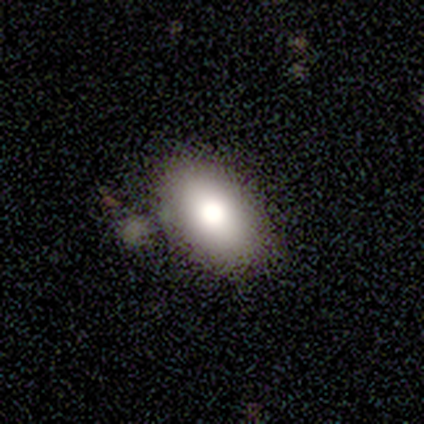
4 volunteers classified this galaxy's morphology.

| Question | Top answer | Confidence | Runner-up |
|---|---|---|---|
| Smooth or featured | smooth | 75% | star or artifact (25%) |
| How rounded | in between | 100% | — |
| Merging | none | 100% | — |